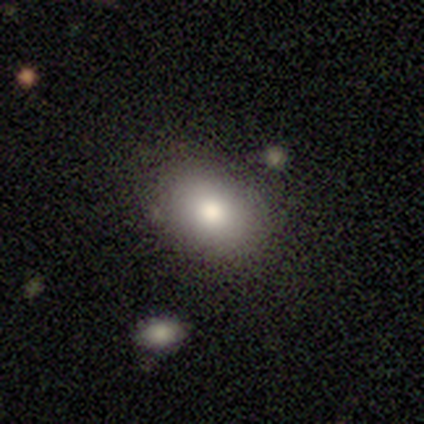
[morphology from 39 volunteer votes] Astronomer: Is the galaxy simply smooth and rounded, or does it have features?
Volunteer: smooth — 77%.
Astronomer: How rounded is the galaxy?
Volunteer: in between — 70%.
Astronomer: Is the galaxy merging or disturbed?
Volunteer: none — 92%.